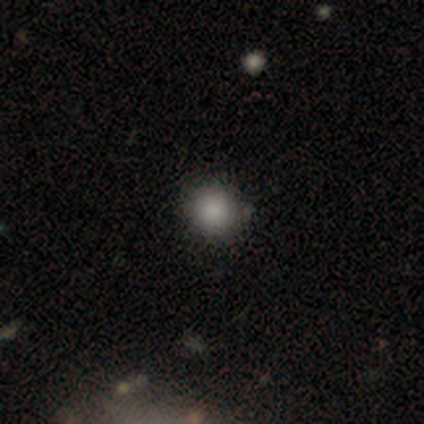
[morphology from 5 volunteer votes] smooth 80%, star or artifact 20%, featured or disk 0%. Down the decision tree: how rounded — round (100%); merging — none (100%).